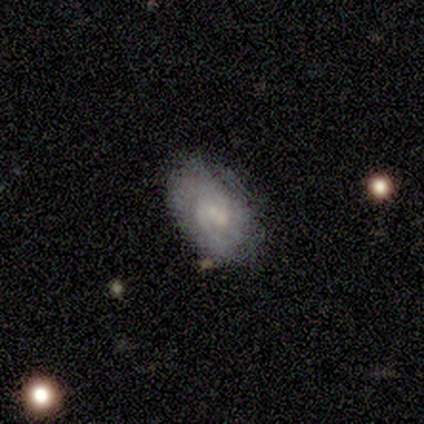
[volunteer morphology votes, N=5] smooth_or_featured: smooth (p=0.60) [alt: featured or disk p=0.40]
how_rounded: in between (p=1.00)
merging: none (p=0.80) [alt: minor disturbance p=0.20]